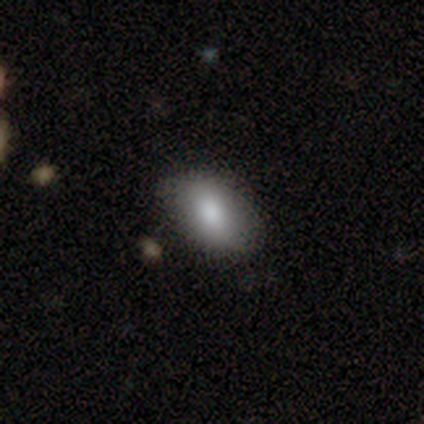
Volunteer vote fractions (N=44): Overall: smooth (93%). How rounded: in between (90%). Merging: none (77%).